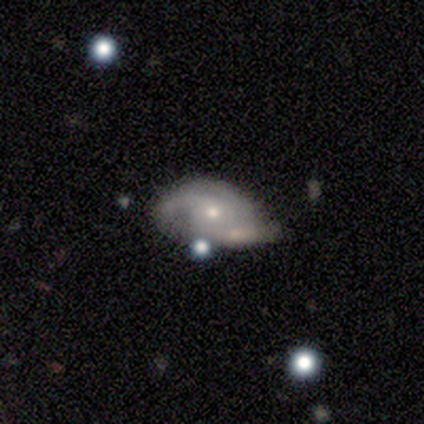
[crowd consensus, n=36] Overall: featured or disk (72%). Edge-on disk: no (100%). Bar: no (81%). Spiral arms: yes (88%). Spiral arm count: 3 (43%; 2 39%). Spiral winding: tight (43%; loose 30%). Bulge size: small (62%; moderate 35%). Merging: none (33%; minor disturbance 28%).